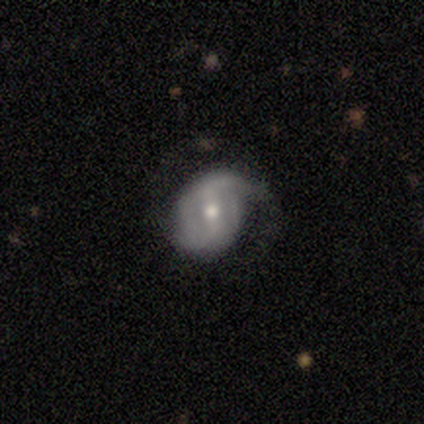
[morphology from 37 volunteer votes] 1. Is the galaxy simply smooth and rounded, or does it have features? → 76% featured or disk, 22% smooth, 3% star or artifact.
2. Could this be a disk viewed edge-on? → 100% no, 0% yes.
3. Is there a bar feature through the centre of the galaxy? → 61% weak, 29% strong, 11% no.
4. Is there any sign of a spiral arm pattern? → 71% yes, 29% no.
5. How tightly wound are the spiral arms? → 45% loose, 30% medium, 25% tight.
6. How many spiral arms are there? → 80% 2, 10% 1, 10% can't tell, 0% 3, 0% 4, 0% more than 4.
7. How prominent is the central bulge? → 50% moderate, 32% small, 18% large, 0% dominant, 0% none.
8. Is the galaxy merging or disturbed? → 50% none, 36% minor disturbance, 14% major disturbance, 0% merger.